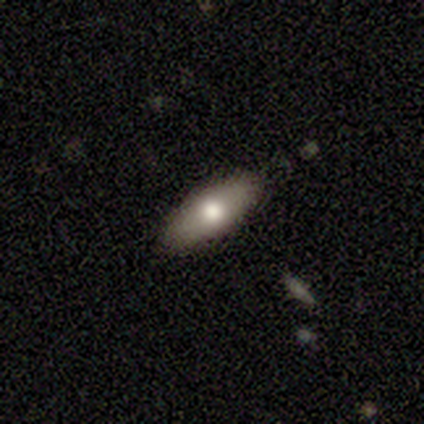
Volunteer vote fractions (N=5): Q: Smooth or featured?
A: smooth (100%)
Q: How rounded?
A: in between (80%); runner-up: cigar-shaped (20%)
Q: Merging?
A: none (100%)